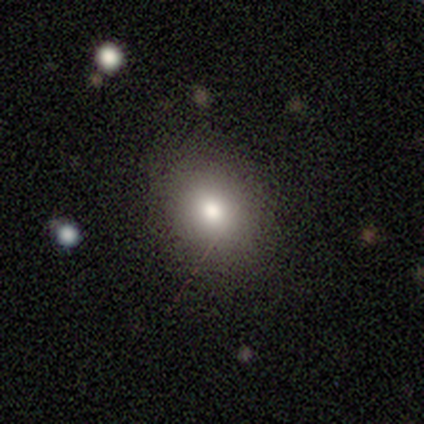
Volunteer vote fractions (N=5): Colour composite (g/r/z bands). It shows a smooth galaxy with no disk features (80%) that is round (100%). Merging: none (100%).